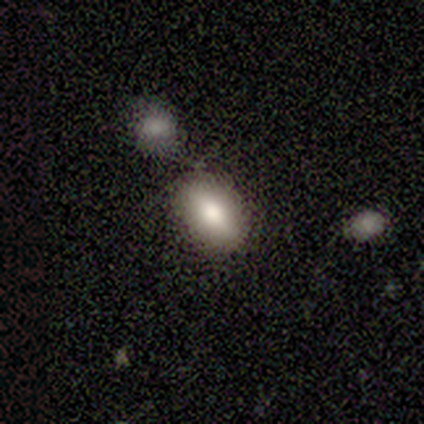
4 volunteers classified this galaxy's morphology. Volunteers were most divided on "smooth or featured": smooth: 75%, featured or disk: 25%, star or artifact: 0%. More confident: how rounded — in between (100%); merging — none (100%).